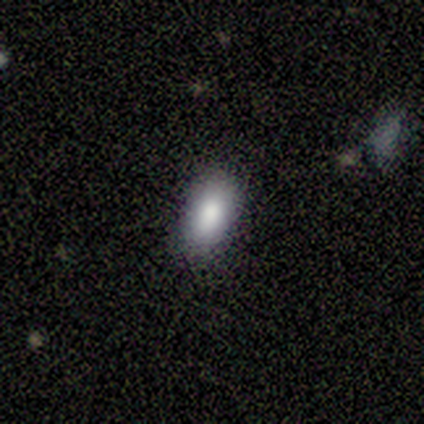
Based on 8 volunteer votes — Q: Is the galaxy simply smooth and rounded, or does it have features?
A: smooth — 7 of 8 (88%).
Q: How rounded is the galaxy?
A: in between — 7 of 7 (100%).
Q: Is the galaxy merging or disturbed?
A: none — 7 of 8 (88%).